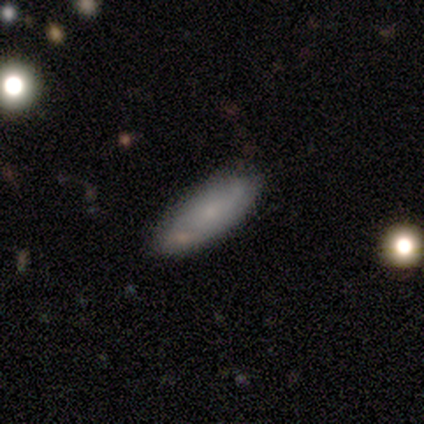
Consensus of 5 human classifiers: A smooth galaxy with no disk features (60%) that is in between round and cigar-shaped (100%).

Vote fractions:
- Smooth or featured? smooth: 60% / featured or disk: 40% / star or artifact: 0%
- How rounded? in between: 100% / round: 0% / cigar-shaped: 0%
- Merging? none: 40% (tied) / minor disturbance: 40% (tied) / merger: 20% / major disturbance: 0%